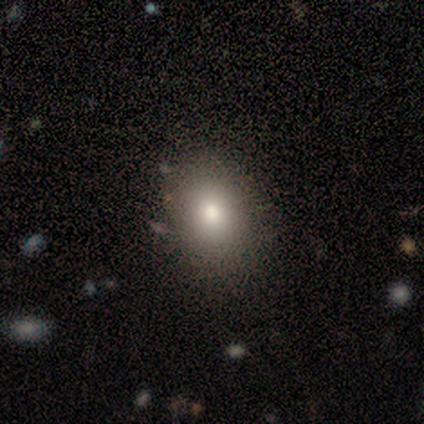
Smooth or featured: smooth — 67% (featured or disk — 33%)
How rounded: round — 100%
Merging: none — 100%